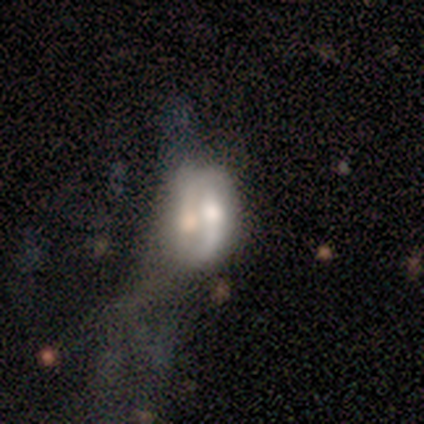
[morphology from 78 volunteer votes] This is possibly a featured or disk galaxy (54%). It is clearly not viewed edge-on (95%). Bar: likely no (68%). Spiral arm pattern: possibly yes (55%). Spiral arm count: possibly 2 (45%). Spiral winding: likely loose (73%). Central bulge: possibly moderate (50%). Merging: possibly merger (50%).